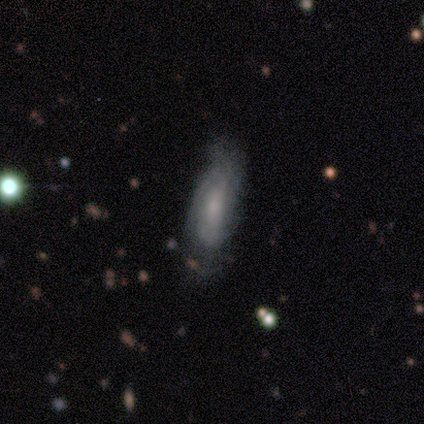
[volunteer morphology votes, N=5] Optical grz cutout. It shows a smooth galaxy with no disk features (60%) that is cigar-shaped (67%). Merging: none (60%).